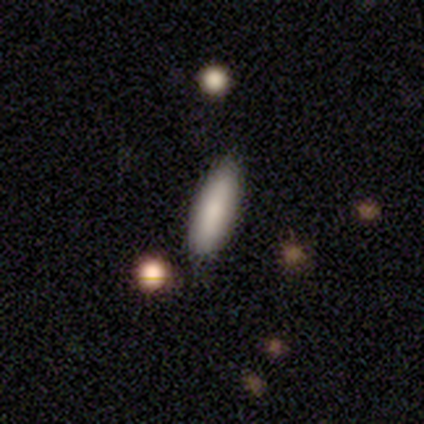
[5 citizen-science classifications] Smooth or featured?
  - smooth: 80% *
  - featured or disk: 20%
  - star or artifact: 0%
How rounded?
  - in between: 50% * (tied)
  - cigar-shaped: 50% * (tied)
  - round: 0%
Merging?
  - none: 100% *
  - minor disturbance: 0%
  - major disturbance: 0%
  - merger: 0%